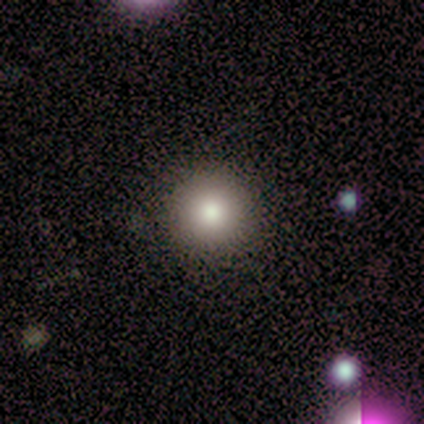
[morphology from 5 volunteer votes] type=smooth (100%); roundness=round (100%); merging=none (100%).